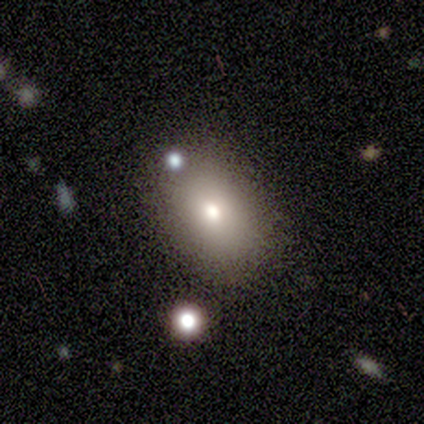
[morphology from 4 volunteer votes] This is clearly a smooth galaxy (100%). How rounded: clearly in between (100%). Merging: likely none (75%).